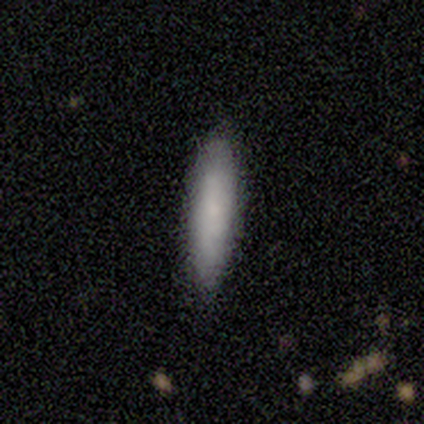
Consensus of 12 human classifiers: smooth-or-featured: smooth: 83% | featured or disk: 17% | star or artifact: 0%
  how-rounded: in between: 60% | cigar-shaped: 40% | round: 0%
  merging: none: 100% | minor disturbance: 0% | major disturbance: 0% | merger: 0%